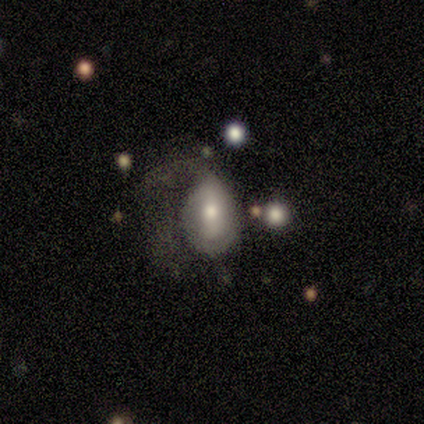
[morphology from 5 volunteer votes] Smooth or featured? featured or disk (80%)
Edge-on disk? no (100%)
Bar? strong (75%)
Spiral arms? no (75%)
Bulge size? moderate (50%)
Merging? major disturbance (80%)